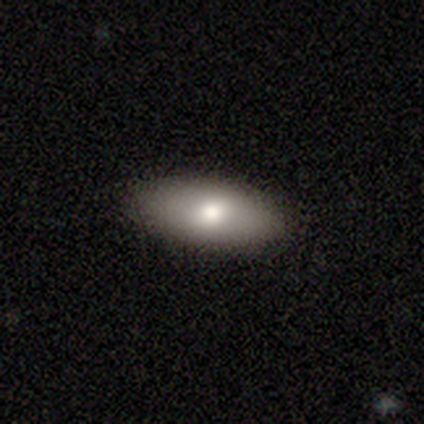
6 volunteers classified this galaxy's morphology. Overall: smooth (83%). How rounded: in between (100%). Merging: none (100%).